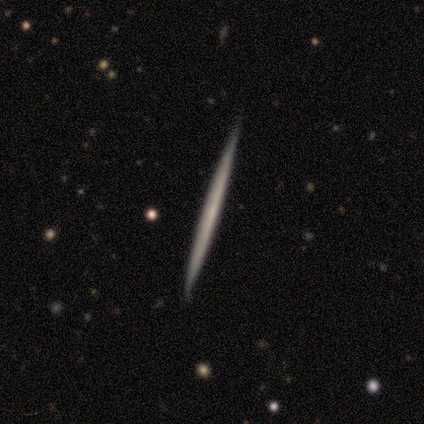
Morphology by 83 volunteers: type=featured or disk (72%); edge-on=yes (100%); edge-on bulge=none (92%); merging=none (71%).